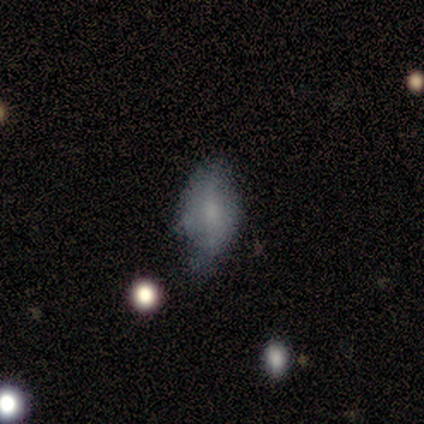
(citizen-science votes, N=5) Volunteers were most divided on "bar" (3-way tie): strong: 33%, weak: 33%, no: 33%; "spiral winding" (3-way tie): tight: 33%, medium: 33%, loose: 33%. More confident: edge-on disk — no (100%); spiral arms — yes (100%); spiral arm count — 2 (67%); bulge size — none (67%); smooth or featured — featured or disk (60%); merging — minor disturbance (60%).